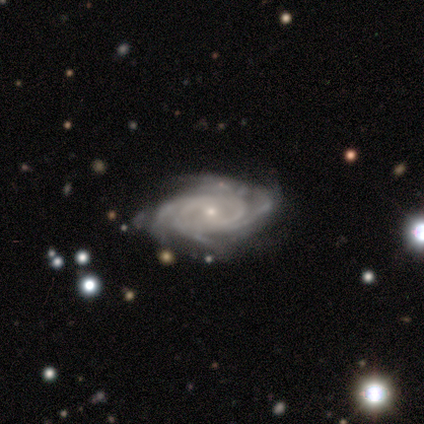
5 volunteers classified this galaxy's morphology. Smooth or featured? featured or disk (100%)
Edge-on disk? no (100%)
Bar? weak (60%)
Spiral arms? yes (100%)
Spiral winding? tight (100%)
Spiral arm count? 4 (40%, tied with can't tell)
Bulge size? small (100%)
Merging? none (60%)